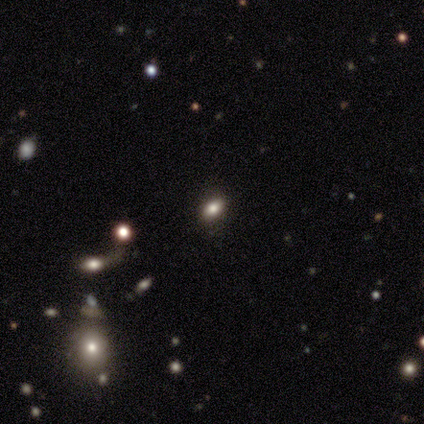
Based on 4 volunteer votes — smooth 50% (tied), star or artifact 50% (tied), featured or disk 0%. Down the decision tree: how rounded — in between (100%); merging — none (100%).